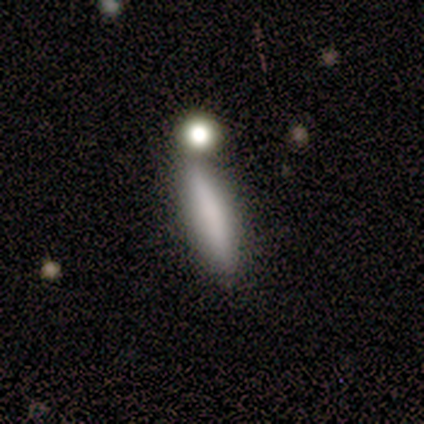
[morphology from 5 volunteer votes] A smooth galaxy with no disk features (100%) that is cigar-shaped (80%).

Vote fractions:
- Smooth or featured? smooth: 100% / featured or disk: 0% / star or artifact: 0%
- How rounded? cigar-shaped: 80% / in between: 20% / round: 0%
- Merging? none: 60% / minor disturbance: 40% / major disturbance: 0% / merger: 0%